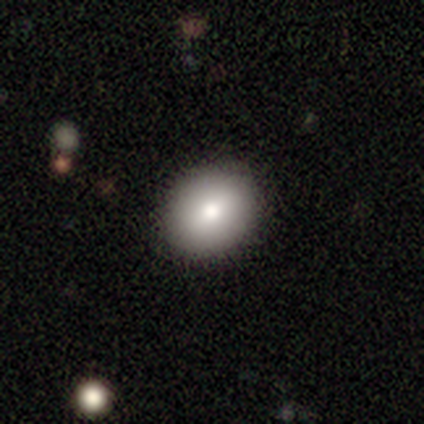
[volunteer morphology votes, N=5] A smooth galaxy with no disk features (100%) that is round (60%). Merging: none (100%).